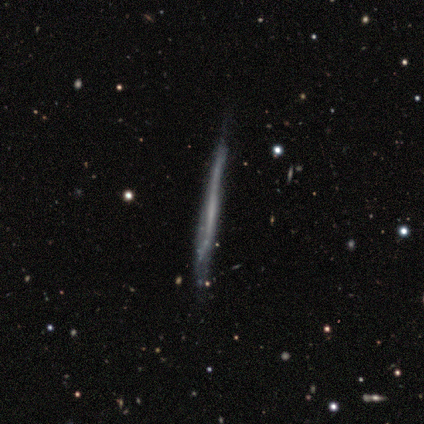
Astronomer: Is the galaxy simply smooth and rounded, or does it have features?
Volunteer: featured or disk — 100%.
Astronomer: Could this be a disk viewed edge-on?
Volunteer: yes — 100%.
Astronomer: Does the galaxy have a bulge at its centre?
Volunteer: none — 100%.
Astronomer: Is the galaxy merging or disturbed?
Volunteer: none — 60%.